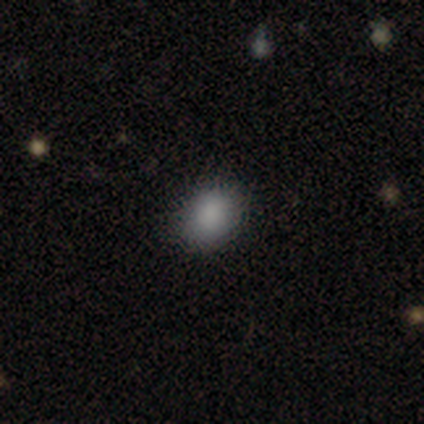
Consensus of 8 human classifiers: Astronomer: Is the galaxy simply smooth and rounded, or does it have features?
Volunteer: smooth — 100%.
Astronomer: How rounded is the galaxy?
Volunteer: round — 50%, tied with in between at 50%.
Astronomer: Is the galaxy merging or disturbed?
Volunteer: none — 75%.